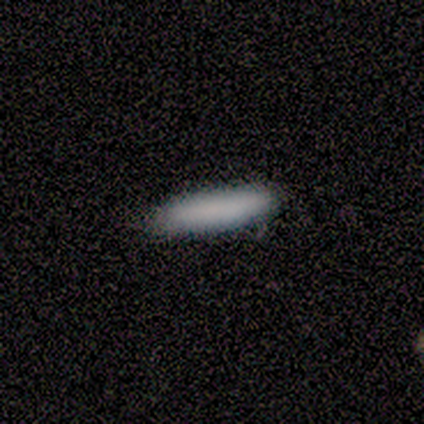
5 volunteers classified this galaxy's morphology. Smooth or featured? smooth (100%)
How rounded? cigar-shaped (100%)
Merging? none (80%)